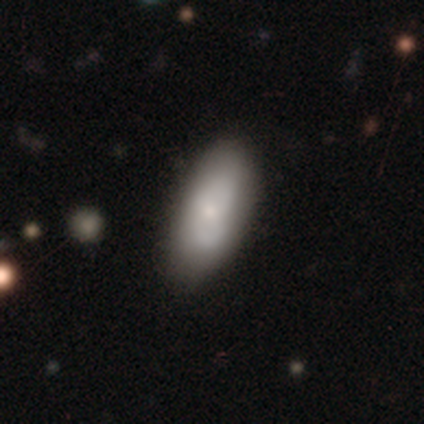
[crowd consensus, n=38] Overall: smooth (58%; featured or disk 39%). How rounded: in between (86%). Merging: none (73%).